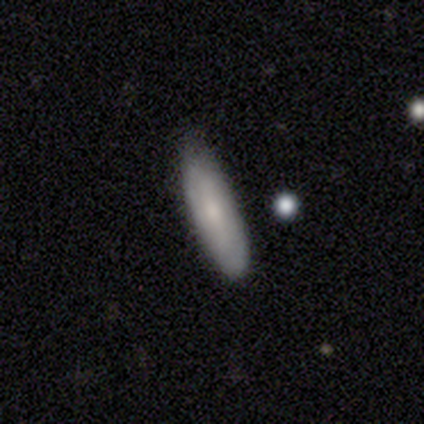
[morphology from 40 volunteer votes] type=smooth (68%); roundness=cigar-shaped (67%); merging=none (79%).